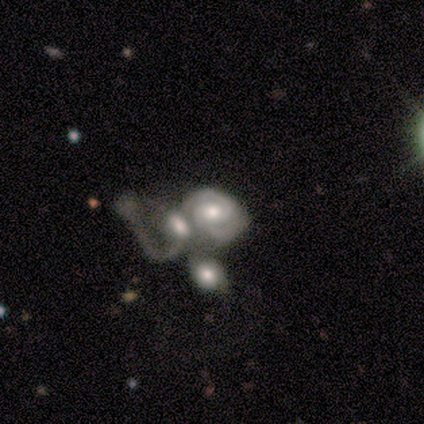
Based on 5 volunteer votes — A featured or disk galaxy (60%) with a weak bar (67%), 2 (100%) tight (50%, tied with medium) spiral arms (67%) and a moderate central bulge (67%). Merging: merger (100%).